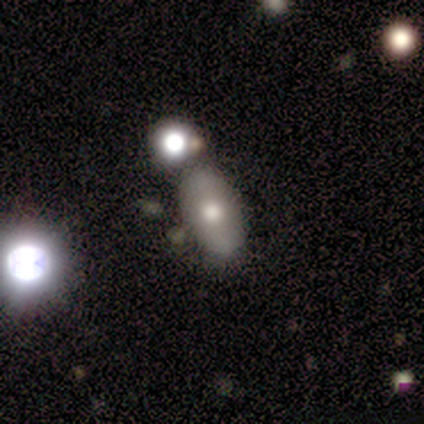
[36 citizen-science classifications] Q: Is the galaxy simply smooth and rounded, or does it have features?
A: smooth — 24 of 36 (67%).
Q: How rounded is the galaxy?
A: in between — 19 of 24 (79%).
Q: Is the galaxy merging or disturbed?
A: none — 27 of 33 (82%).